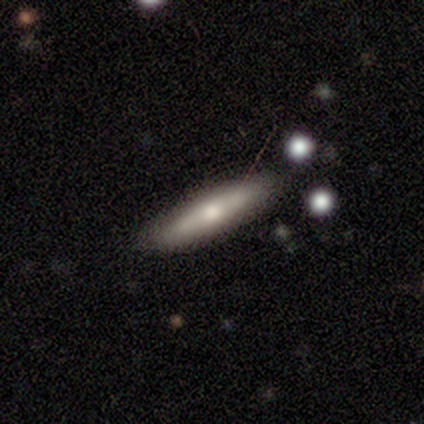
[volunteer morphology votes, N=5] Volunteers were most divided on "smooth or featured": smooth: 60%, featured or disk: 40%, star or artifact: 0%. More confident: merging — none (100%); how rounded — cigar-shaped (67%).